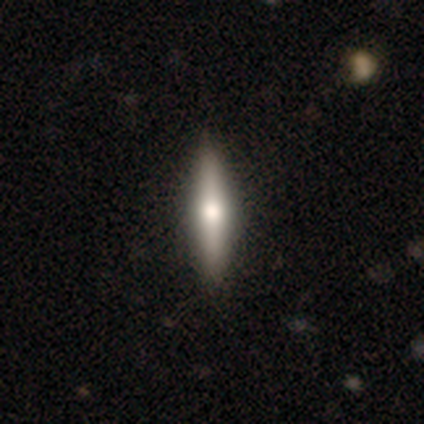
Smooth or featured: featured or disk — 60% (smooth — 40%)
Edge-on disk: yes — 100%
Edge-on bulge: rounded — 67% (none — 33%)
Merging: none — 100%